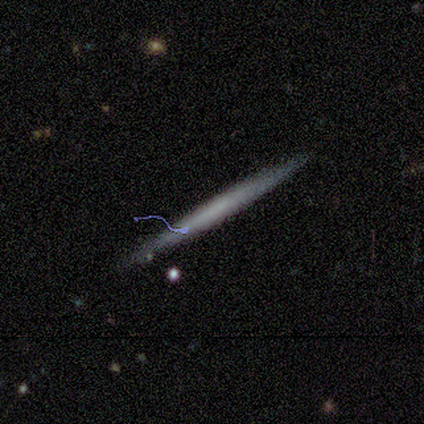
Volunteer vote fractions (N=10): Smooth or featured? 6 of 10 (60%) said featured or disk. Edge-on disk? 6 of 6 (100%) said yes. Edge-on bulge? 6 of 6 (100%) said none. Merging? 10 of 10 (100%) said none.